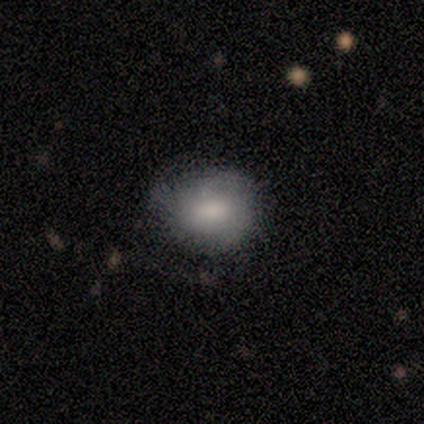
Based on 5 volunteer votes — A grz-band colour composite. It shows a smooth galaxy with no disk features (80%) that is round (50%, tied with in between). Merging: none (60%).